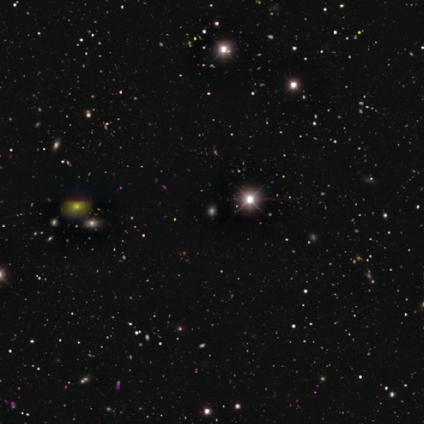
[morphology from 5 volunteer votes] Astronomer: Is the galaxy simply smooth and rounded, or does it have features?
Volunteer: star or artifact — 100%.